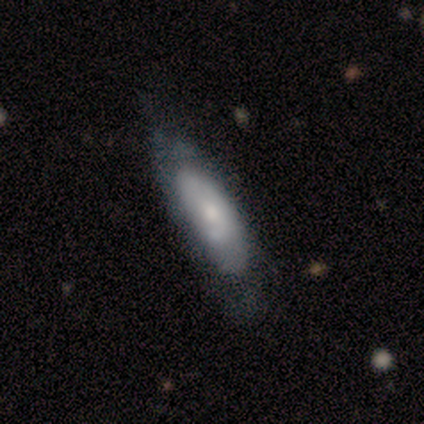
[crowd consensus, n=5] This is clearly a smooth galaxy (80%). How rounded: possibly cigar-shaped (50%). Merging: clearly none (100%).